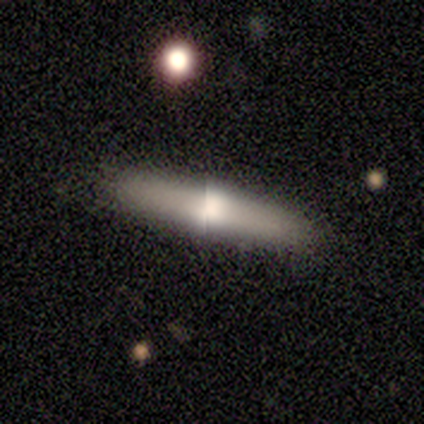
Smooth or featured? smooth (60%)
How rounded? cigar-shaped (67%)
Merging? none (100%)